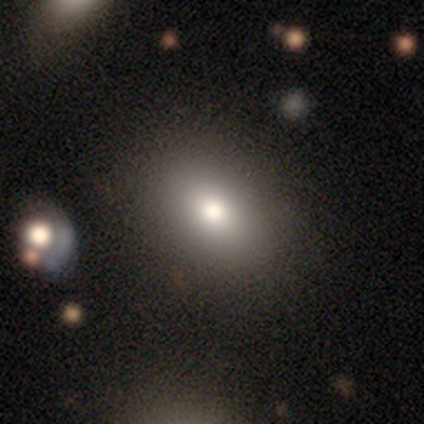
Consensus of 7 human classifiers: A smooth galaxy with no disk features (100%) that is in between round and cigar-shaped (57%).

Vote fractions:
- Smooth or featured? smooth: 100% / featured or disk: 0% / star or artifact: 0%
- How rounded? in between: 57% / round: 43% / cigar-shaped: 0%
- Merging? none: 100% / minor disturbance: 0% / major disturbance: 0% / merger: 0%